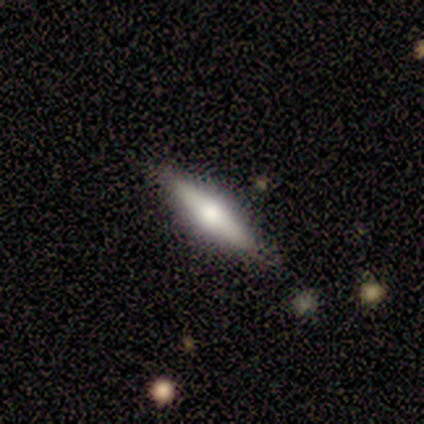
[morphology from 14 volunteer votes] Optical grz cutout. It shows a smooth galaxy with no disk features (50%, tied with featured or disk) that is cigar-shaped (71%). Merging: none (100%).